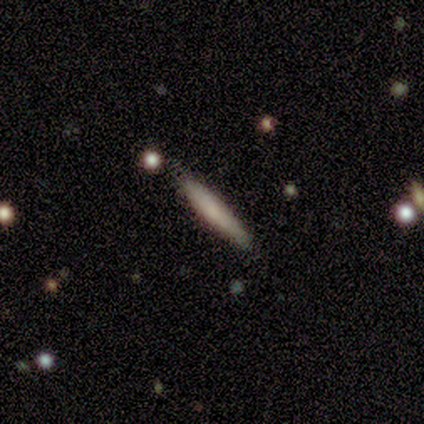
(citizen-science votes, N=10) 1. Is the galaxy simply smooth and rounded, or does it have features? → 70% smooth, 30% featured or disk, 0% star or artifact.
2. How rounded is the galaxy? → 100% cigar-shaped, 0% round, 0% in between.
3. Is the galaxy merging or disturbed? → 90% none, 10% minor disturbance, 0% major disturbance, 0% merger.